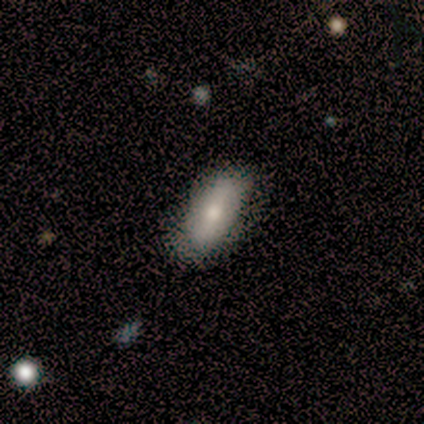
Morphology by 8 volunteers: Smooth or featured? 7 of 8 (88%) said smooth. How rounded? 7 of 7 (100%) said in between. Merging? 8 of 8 (100%) said none.